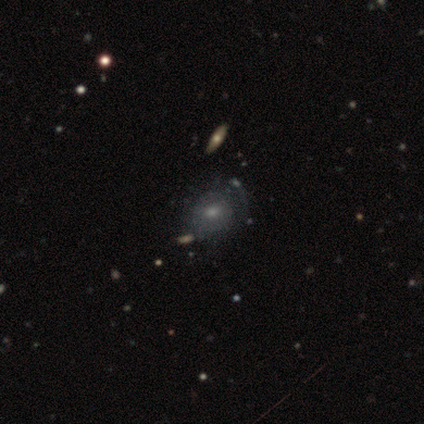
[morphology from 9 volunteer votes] A smooth galaxy with no disk features (44%) that is round (75%). Merging: none (71%).